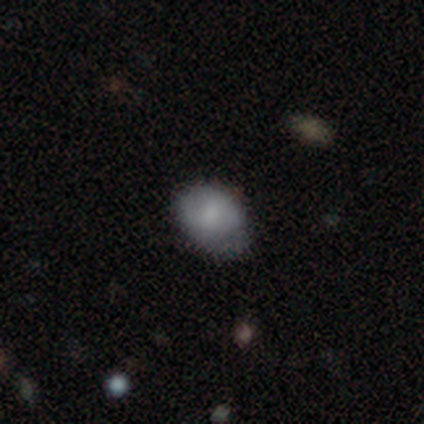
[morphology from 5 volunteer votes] Volunteers were most divided on "merging": none: 60%, minor disturbance: 20%, merger: 20%, major disturbance: 0%. More confident: smooth or featured — smooth (80%); how rounded — in between (75%).